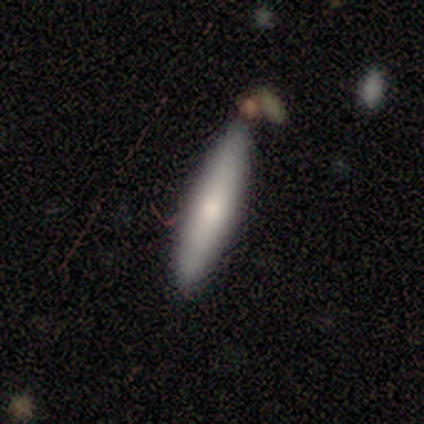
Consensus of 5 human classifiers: Smooth or featured?
  - featured or disk: 60% *
  - smooth: 40%
  - star or artifact: 0%
Edge-on disk?
  - yes: 67% *
  - no: 33%
Edge-on bulge?
  - rounded: 100% *
  - boxy: 0%
  - none: 0%
Merging?
  - none: 100% *
  - minor disturbance: 0%
  - major disturbance: 0%
  - merger: 0%